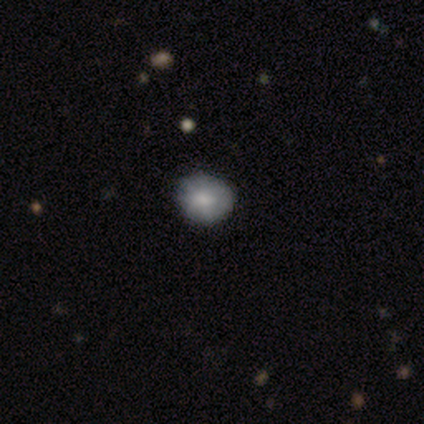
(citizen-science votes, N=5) smooth_or_featured: smooth (p=0.60) [alt: featured or disk p=0.20]
how_rounded: in between (p=0.67) [alt: round p=0.33]
merging: none (p=0.50) [tied with: minor disturbance p=0.50]